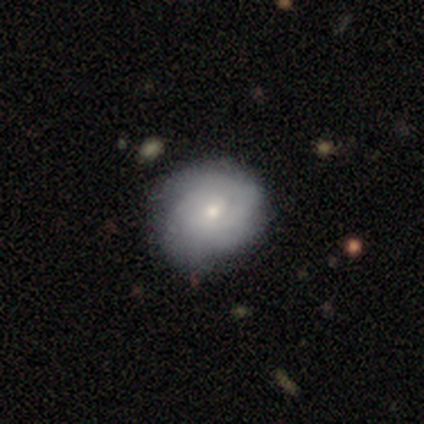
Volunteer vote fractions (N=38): Smooth or featured? smooth (53%)
How rounded? round (75%)
Merging? none (61%)